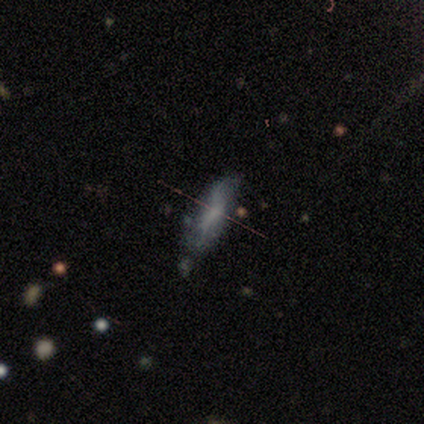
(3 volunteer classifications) smooth_or_featured: featured or disk (p=0.67) [alt: smooth p=0.33]
disk_edge_on: no (p=1.00)
bar: no (p=1.00)
has_spiral_arms: yes (p=0.50) [tied with: no p=0.50]
spiral_winding: medium (p=1.00)
spiral_arm_count: 4 (p=1.00)
bulge_size: none (p=1.00)
merging: minor disturbance (p=0.67) [alt: major disturbance p=0.33]